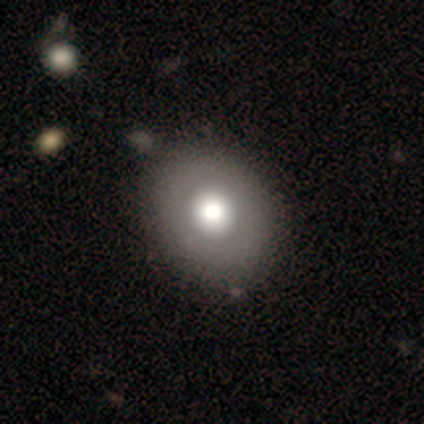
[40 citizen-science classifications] This is likely a smooth galaxy (75%). How rounded: likely round (70%). Merging: likely none (60%).